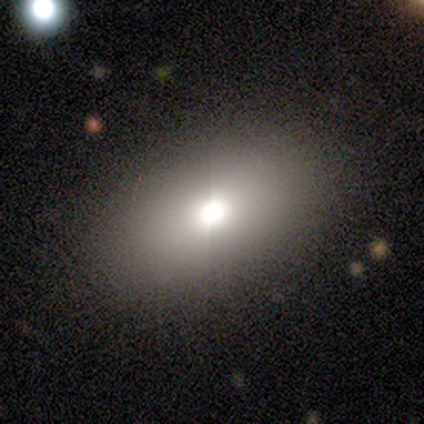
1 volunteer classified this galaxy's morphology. A featured or disk galaxy (100%) with no bar (100%), no spiral arms (100%) and a large central bulge (100%). Merging: none (100%).